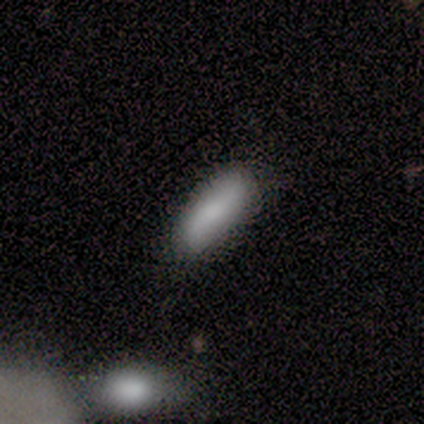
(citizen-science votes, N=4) Q: Smooth or featured?
A: smooth (100%)
Q: How rounded?
A: in between (75%); runner-up: cigar-shaped (25%)
Q: Merging?
A: none (75%); runner-up: minor disturbance (25%)